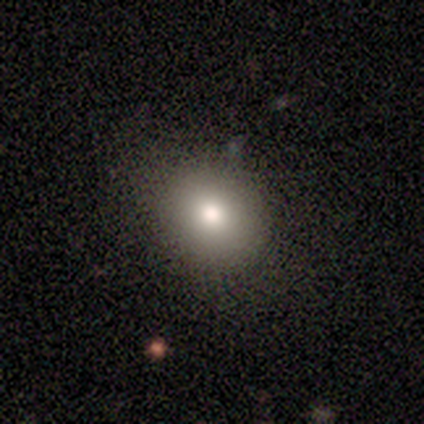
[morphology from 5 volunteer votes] Smooth or featured? 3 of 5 (60%) said star or artifact.